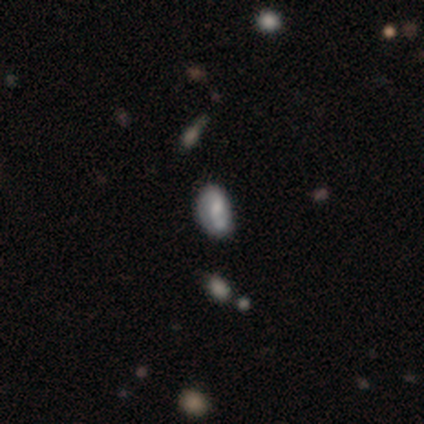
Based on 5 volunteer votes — Overall: smooth (40%, tied with featured or disk). How rounded: in between (100%). Merging: minor disturbance (75%).